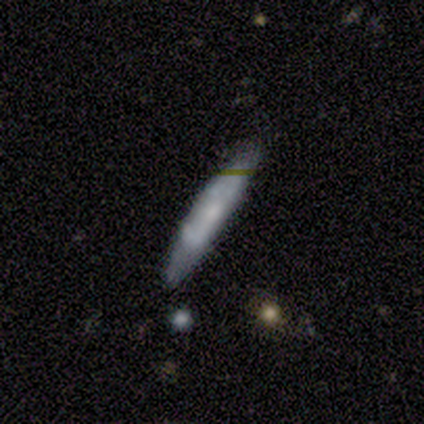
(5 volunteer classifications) Smooth or featured?
  - smooth: 80% *
  - featured or disk: 20%
  - star or artifact: 0%
How rounded?
  - cigar-shaped: 100% *
  - round: 0%
  - in between: 0%
Merging?
  - none: 80% *
  - merger: 20%
  - minor disturbance: 0%
  - major disturbance: 0%